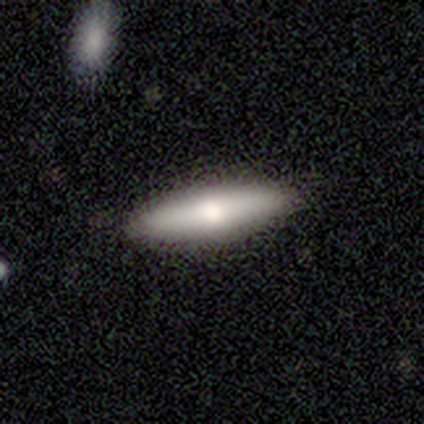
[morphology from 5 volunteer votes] smooth_or_featured: smooth (p=0.40) [tied with: featured or disk p=0.40]
how_rounded: in between (p=0.50) [tied with: cigar-shaped p=0.50]
merging: none (p=1.00)